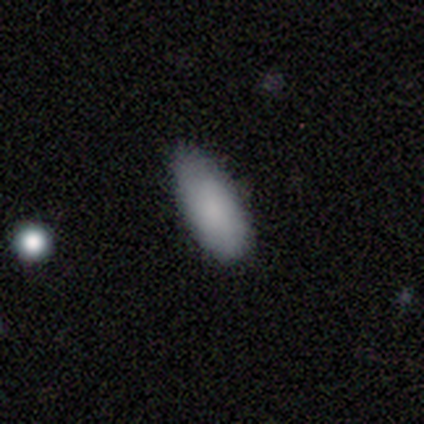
Morphology: type=smooth (79%); roundness=in between (87%); merging=none (74%).